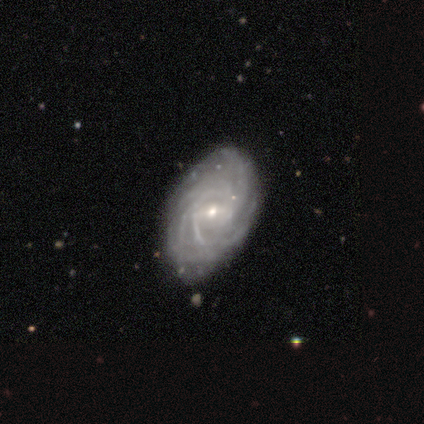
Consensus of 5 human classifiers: This appears to be a featured or disk galaxy (80%) with a weak bar (50%), 4 (67%) tight (67%) spiral arms (75%) and a small central bulge (75%). Merging: none (75%).